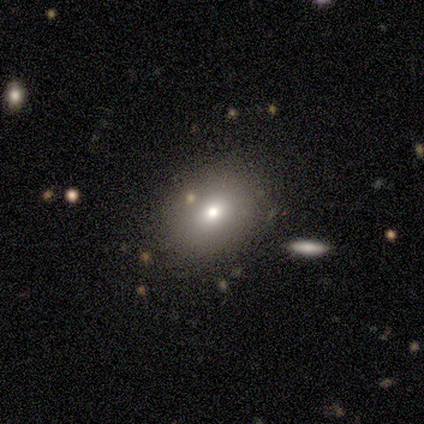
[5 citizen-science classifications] Smooth or featured?
  - smooth: 80% *
  - featured or disk: 20%
  - star or artifact: 0%
How rounded?
  - round: 75% *
  - in between: 25%
  - cigar-shaped: 0%
Merging?
  - none: 80% *
  - minor disturbance: 20%
  - major disturbance: 0%
  - merger: 0%